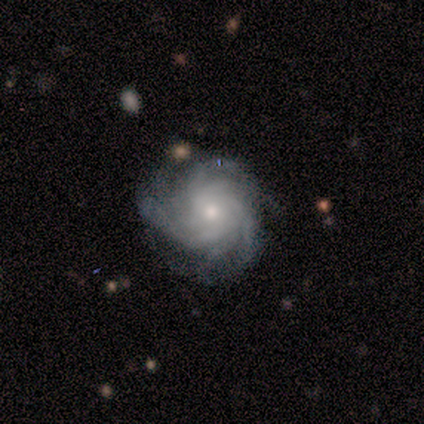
featured or disk 100%, smooth 0%, star or artifact 0%. Down the decision tree: edge-on disk — no (100%); bar — no (75%); spiral arms — yes (100%); spiral arm count — more than 4 (50%); spiral winding — tight (100%); bulge size — small (75%); merging — none (100%).